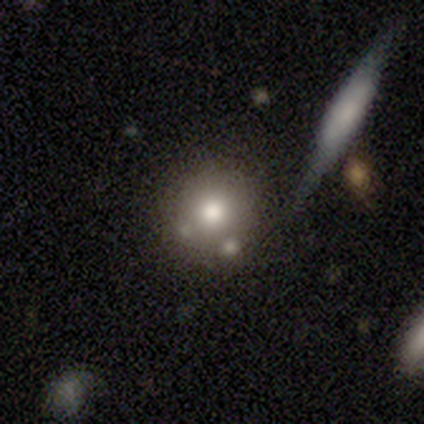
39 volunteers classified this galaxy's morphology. smooth_or_featured: smooth (p=0.77) [alt: featured or disk p=0.18]
how_rounded: round (p=0.93) [alt: in between p=0.03]
merging: none (p=0.51) [alt: merger p=0.16]